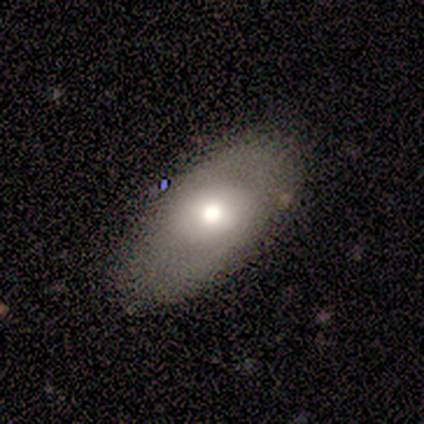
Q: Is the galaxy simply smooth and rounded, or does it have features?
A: smooth — 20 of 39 (51%).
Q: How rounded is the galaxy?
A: in between — 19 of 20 (95%).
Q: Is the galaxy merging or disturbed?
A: none — 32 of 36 (89%).